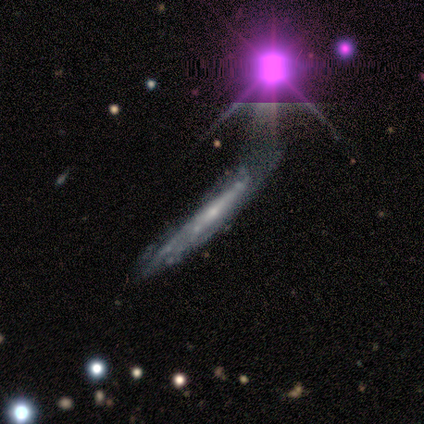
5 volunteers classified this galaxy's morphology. featured or disk 60%, smooth 20%, star or artifact 20%. Down the decision tree: edge-on disk — yes (67%); edge-on bulge — boxy (50%, tied with rounded); merging — minor disturbance (75%).